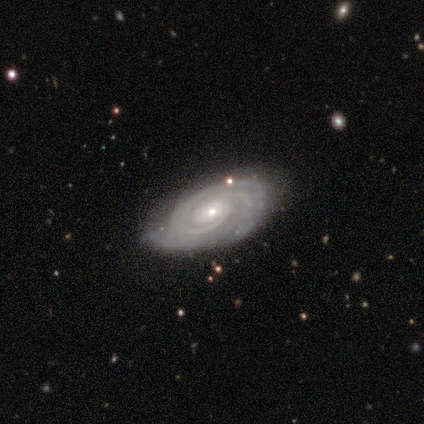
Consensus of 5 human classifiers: smooth-or-featured: featured or disk: 80% | star or artifact: 20% | smooth: 0%
  disk-edge-on: no: 75% | yes: 25%
    bar: no: 100% | strong: 0% | weak: 0%
    has-spiral-arms: yes: 100% | no: 0%
      spiral-winding: tight: 100% | medium: 0% | loose: 0%
      spiral-arm-count: can't tell: 67% | 2: 33% | 1: 0% | 3: 0% | 4: 0% | more than 4: 0%
    bulge-size: small: 67% | moderate: 33% | dominant: 0% | large: 0% | none: 0%
  merging: none: 100% | minor disturbance: 0% | major disturbance: 0% | merger: 0%